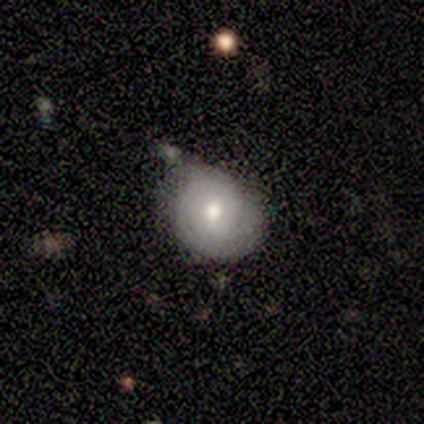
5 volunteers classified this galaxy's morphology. smooth_or_featured: smooth (p=0.80) [alt: featured or disk p=0.20]
how_rounded: round (p=0.75) [alt: in between p=0.25]
merging: minor disturbance (p=0.60) [alt: none p=0.40]